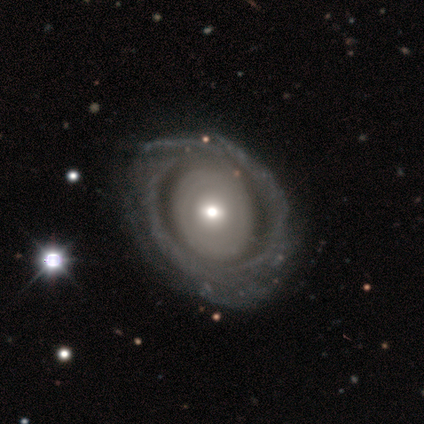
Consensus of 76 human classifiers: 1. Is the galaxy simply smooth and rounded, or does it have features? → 76% featured or disk, 22% smooth, 1% star or artifact.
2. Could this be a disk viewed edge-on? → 100% no, 0% yes.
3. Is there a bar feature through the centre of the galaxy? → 72% no, 24% weak, 3% strong.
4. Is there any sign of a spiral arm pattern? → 60% yes, 40% no.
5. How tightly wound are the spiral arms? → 74% tight, 23% medium, 3% loose.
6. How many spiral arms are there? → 60% can't tell, 20% 2, 11% 3, 6% more than 4, 3% 4, 0% 1.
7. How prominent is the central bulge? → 43% moderate, 36% small, 12% large, 9% dominant, 0% none.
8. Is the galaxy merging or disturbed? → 67% none, 15% minor disturbance, 5% major disturbance, 1% merger.